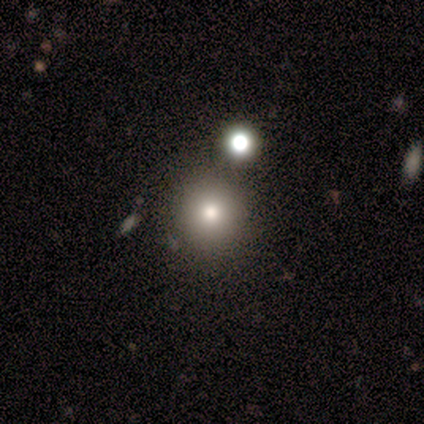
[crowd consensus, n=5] smooth-or-featured: smooth: 60% | featured or disk: 20% | star or artifact: 20%
  how-rounded: round: 100% | in between: 0% | cigar-shaped: 0%
  merging: none: 75% | major disturbance: 25% | minor disturbance: 0% | merger: 0%